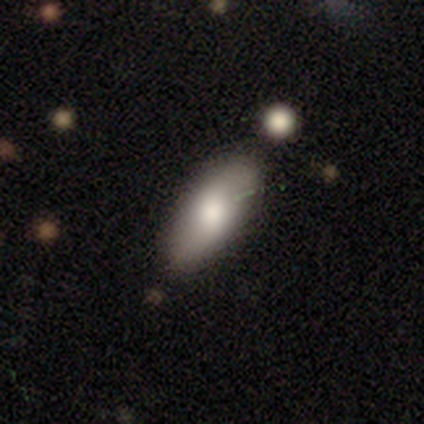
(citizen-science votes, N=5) smooth_or_featured: smooth (p=0.60) [alt: featured or disk p=0.20]
how_rounded: in between (p=0.67) [alt: cigar-shaped p=0.33]
merging: none (p=0.50) [alt: minor disturbance p=0.25]